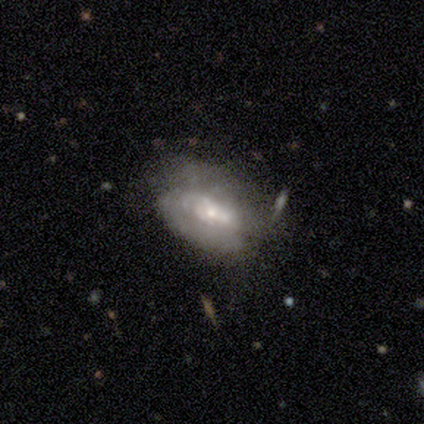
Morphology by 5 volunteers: A featured or disk galaxy (60%) with no bar (67%), 3 (50%, tied with can't tell) tight (100%) spiral arms (67%) and a small central bulge (100%).

Vote fractions:
- Smooth or featured? featured or disk: 60% / smooth: 40% / star or artifact: 0%
- Edge-on disk? no: 100% / yes: 0%
- Bar? no: 67% / weak: 33% / strong: 0%
- Spiral arms? yes: 67% / no: 33%
- Spiral winding? tight: 100% / medium: 0% / loose: 0%
- Spiral arm count? 3: 50% (tied) / can't tell: 50% (tied) / 1: 0% / 2: 0% / 4: 0% / more than 4: 0%
- Bulge size? small: 100% / dominant: 0% / large: 0% / moderate: 0% / none: 0%
- Merging? none: 60% / minor disturbance: 20% / merger: 20% / major disturbance: 0%